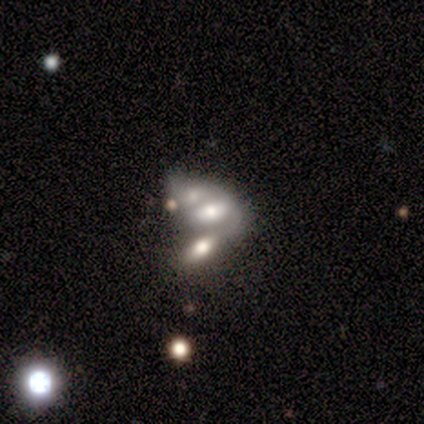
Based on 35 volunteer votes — A featured or disk galaxy (51%) with no bar (83%), no spiral arms (72%) and a moderate central bulge (67%).

Vote fractions:
- Smooth or featured? featured or disk: 51% / smooth: 34% / star or artifact: 14%
- Edge-on disk? no: 100% / yes: 0%
- Bar? no: 83% / strong: 11% / weak: 6%
- Spiral arms? no: 72% / yes: 28%
- Bulge size? moderate: 67% / large: 17% / small: 11% / none: 6% / dominant: 0%
- Merging? merger: 63% / minor disturbance: 23% / none: 7% / major disturbance: 7%